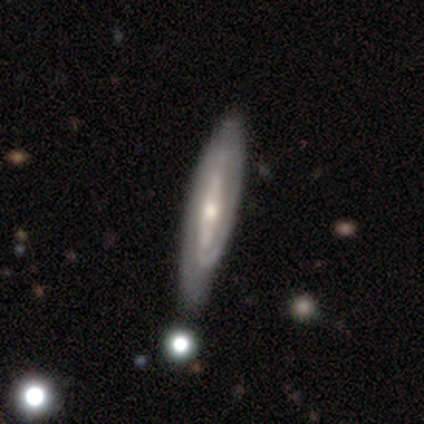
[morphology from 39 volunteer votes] Volunteers were most divided on "spiral winding": tight: 40%, loose: 33%, medium: 27%. Remaining: spiral arms — yes (94%); smooth or featured — featured or disk (69%); bar — strong (62%); merging — none (59%); edge-on disk — no (59%); bulge size — moderate (56%); spiral arm count — 2 (40%).